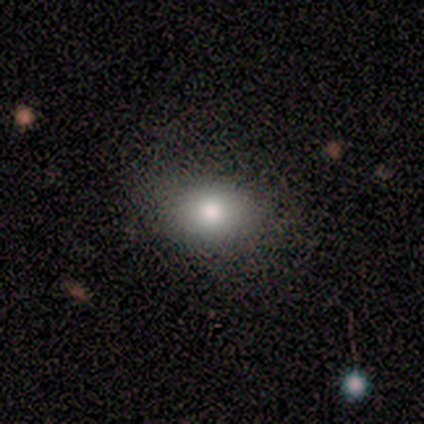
Smooth or featured? smooth (75%)
How rounded? in between (67%)
Merging? none (100%)